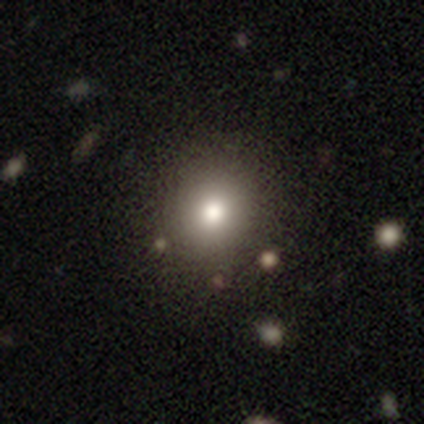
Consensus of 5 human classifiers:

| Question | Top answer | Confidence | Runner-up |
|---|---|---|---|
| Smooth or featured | smooth | 60% | featured or disk (20%) |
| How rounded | round | 100% | — |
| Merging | none | 100% | — |